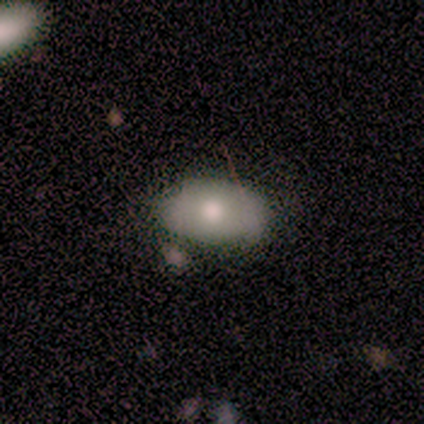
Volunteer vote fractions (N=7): smooth-or-featured: smooth: 86% | featured or disk: 14% | star or artifact: 0%
  how-rounded: in between: 83% | round: 17% | cigar-shaped: 0%
  merging: none: 71% | minor disturbance: 29% | major disturbance: 0% | merger: 0%